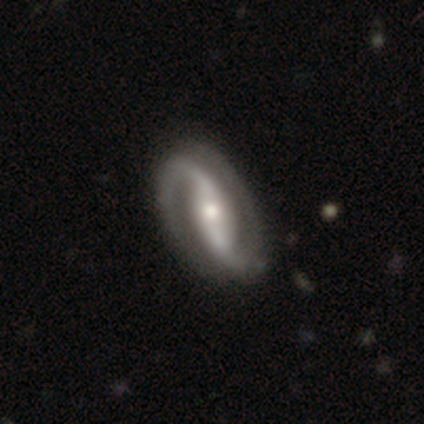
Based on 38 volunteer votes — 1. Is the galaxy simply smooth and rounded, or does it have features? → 89% featured or disk, 8% star or artifact, 3% smooth.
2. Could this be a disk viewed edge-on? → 97% no, 3% yes.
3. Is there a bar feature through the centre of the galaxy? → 58% strong, 24% weak, 18% no.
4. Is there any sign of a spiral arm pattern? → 100% yes, 0% no.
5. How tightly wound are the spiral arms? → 45% loose, 33% medium, 21% tight.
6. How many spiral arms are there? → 94% 2, 6% 1, 0% 3, 0% 4, 0% more than 4, 0% can't tell.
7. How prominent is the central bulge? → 58% moderate, 30% small, 12% large, 0% dominant, 0% none.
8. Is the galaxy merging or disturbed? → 54% none, 6% major disturbance, 3% minor disturbance, 3% merger.